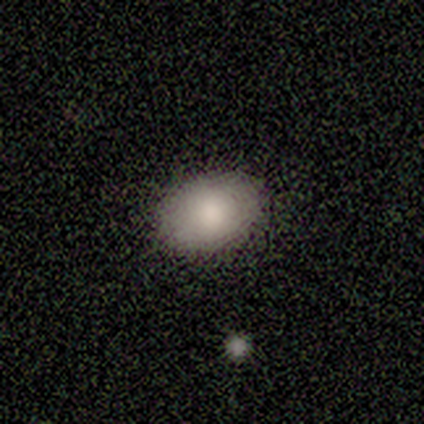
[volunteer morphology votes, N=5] Smooth or featured? 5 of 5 (100%) said smooth. How rounded? 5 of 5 (100%) said in between. Merging? 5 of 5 (100%) said none.